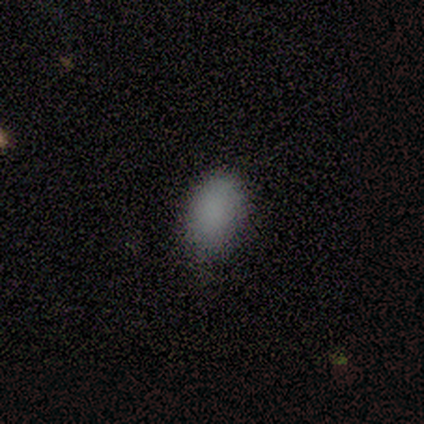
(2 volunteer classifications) A smooth galaxy with no disk features (100%) that is in between round and cigar-shaped (100%). Merging: none (100%).